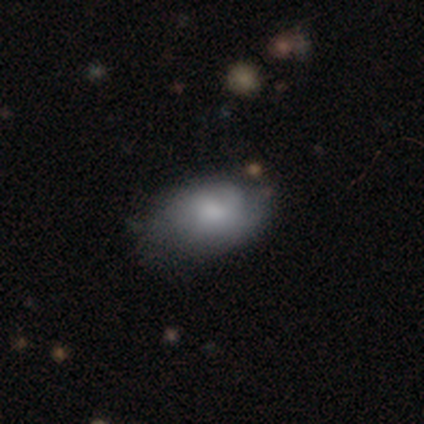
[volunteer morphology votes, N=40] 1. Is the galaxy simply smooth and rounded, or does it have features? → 78% smooth, 22% featured or disk, 0% star or artifact.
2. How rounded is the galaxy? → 81% in between, 19% round, 0% cigar-shaped.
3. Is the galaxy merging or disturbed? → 32% none, 28% minor disturbance, 15% major disturbance, 2% merger.